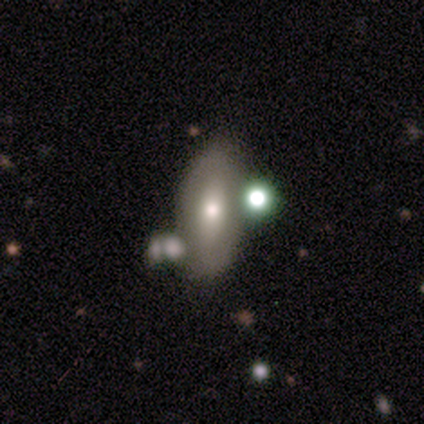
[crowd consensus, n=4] This appears to be a smooth galaxy with no disk features (50%, tied with featured or disk) that is in between round and cigar-shaped (100%). Merging: minor disturbance (50%).